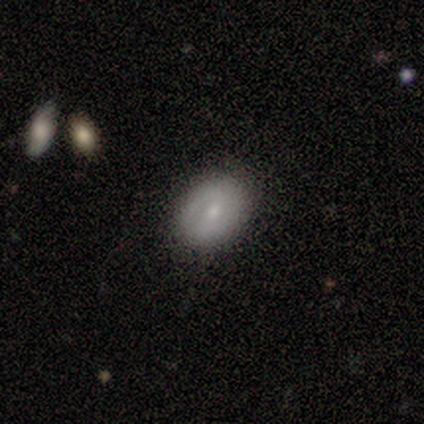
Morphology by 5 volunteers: type=smooth (60%); roundness=round (67%); merging=none (100%).